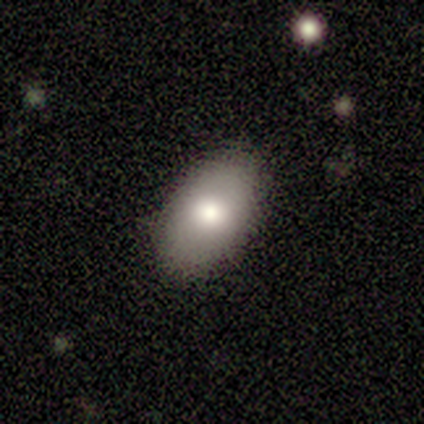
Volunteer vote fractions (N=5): Volunteers were most divided on "smooth or featured": smooth: 60%, featured or disk: 40%, star or artifact: 0%. More confident: how rounded — in between (100%); merging — none (100%).